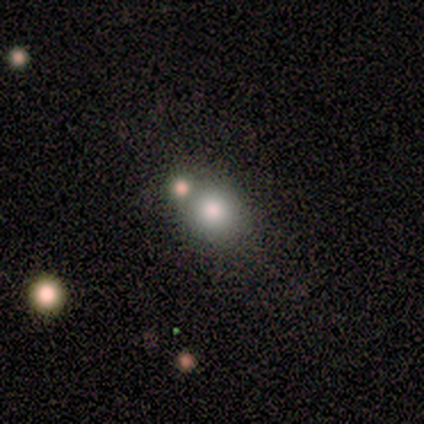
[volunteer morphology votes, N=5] This appears to be a smooth galaxy with no disk features (40%, tied with star or artifact) that is round (100%). Merging: none (67%).